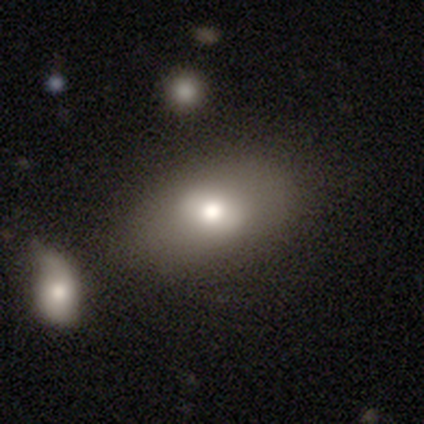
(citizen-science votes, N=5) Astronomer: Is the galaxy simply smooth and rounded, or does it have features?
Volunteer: featured or disk — 60%.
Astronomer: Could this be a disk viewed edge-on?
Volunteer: no — 100%.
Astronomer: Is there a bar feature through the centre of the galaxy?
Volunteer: weak — 67%.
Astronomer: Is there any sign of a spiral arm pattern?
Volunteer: no — 100%.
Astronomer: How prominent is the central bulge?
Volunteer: moderate — 67%.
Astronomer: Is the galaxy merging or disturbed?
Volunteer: none — 75%.